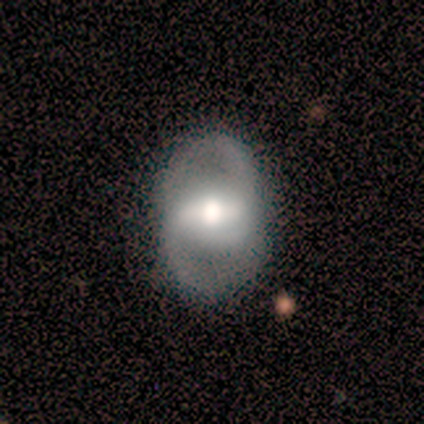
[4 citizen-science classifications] Smooth or featured? 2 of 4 (50%, tied with featured or disk) said smooth. How rounded? 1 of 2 (50%, tied with in between) said round. Merging? 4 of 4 (100%) said none.